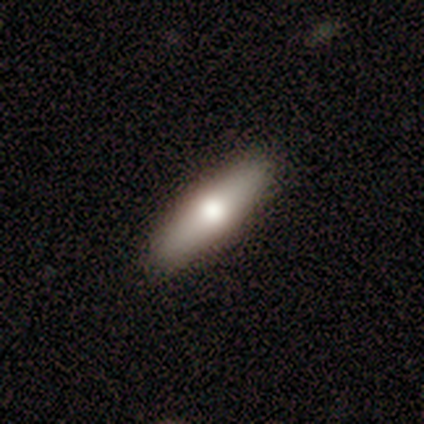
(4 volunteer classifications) Smooth or featured? featured or disk (50%)
Edge-on disk? yes (50%, tied with no)
Edge-on bulge? rounded (100%)
Merging? none (100%)